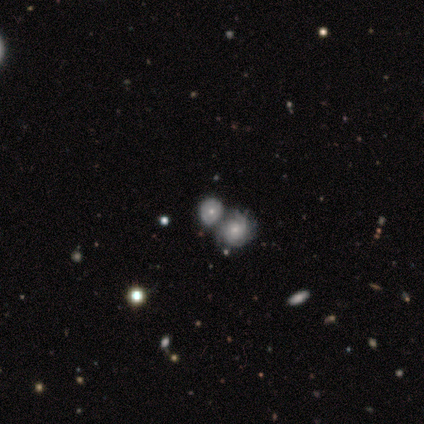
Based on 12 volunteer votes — smooth-or-featured: smooth: 50% (tied) | featured or disk: 50% (tied) | star or artifact: 0%
  how-rounded: round: 50% (tied) | in between: 50% (tied) | cigar-shaped: 0%
  merging: merger: 75% | none: 17% | major disturbance: 8% | minor disturbance: 0%